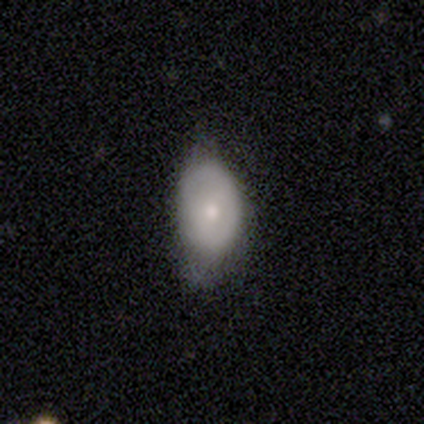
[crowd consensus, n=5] Smooth or featured?
  - featured or disk: 60% *
  - smooth: 40%
  - star or artifact: 0%
Edge-on disk?
  - no: 100% *
  - yes: 0%
Bar?
  - no: 100% *
  - strong: 0%
  - weak: 0%
Spiral arms?
  - no: 100% *
  - yes: 0%
Bulge size?
  - small: 100% *
  - dominant: 0%
  - large: 0%
  - moderate: 0%
  - none: 0%
Merging?
  - minor disturbance: 80% *
  - none: 20%
  - major disturbance: 0%
  - merger: 0%